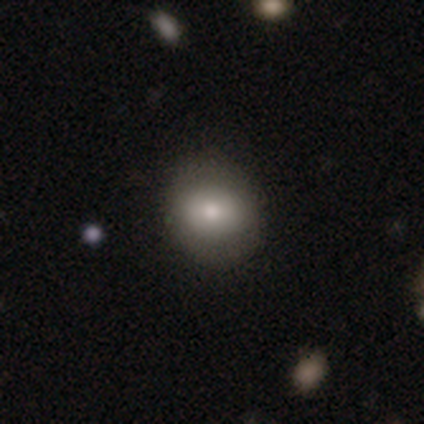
Smooth or featured?
  - smooth: 72% *
  - featured or disk: 20%
  - star or artifact: 8%
How rounded?
  - round: 70% *
  - in between: 29%
  - cigar-shaped: 2%
Merging?
  - none: 84% *
  - minor disturbance: 10%
  - major disturbance: 6%
  - merger: 0%